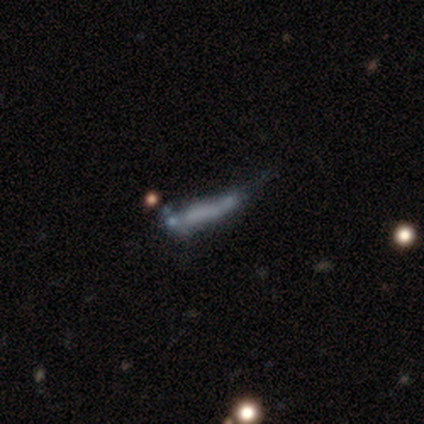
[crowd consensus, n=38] smooth_or_featured: featured or disk (p=0.55) [alt: smooth p=0.26]
disk_edge_on: no (p=0.67) [alt: yes p=0.33]
bar: no (p=0.86) [alt: strong p=0.14]
has_spiral_arms: no (p=0.93) [alt: yes p=0.07]
bulge_size: none (p=0.86) [alt: large p=0.07]
merging: none (p=0.35) [alt: minor disturbance p=0.29]